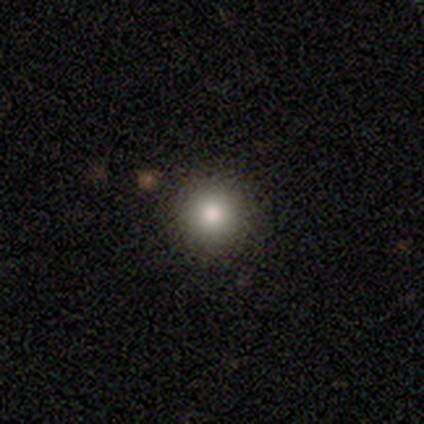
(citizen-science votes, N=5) Smooth or featured: smooth — 100%
How rounded: round — 100%
Merging: none — 100%